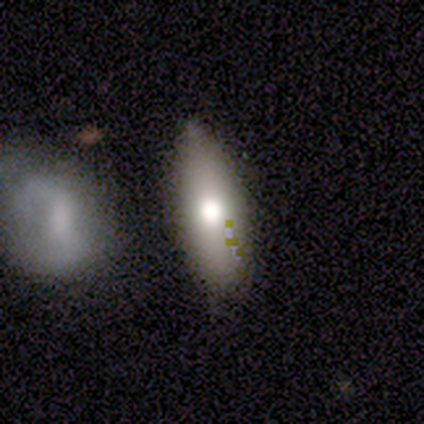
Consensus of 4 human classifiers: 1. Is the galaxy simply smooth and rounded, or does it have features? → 75% smooth, 25% star or artifact, 0% featured or disk.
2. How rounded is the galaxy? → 100% in between, 0% round, 0% cigar-shaped.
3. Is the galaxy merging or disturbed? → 33% none (tied), 33% minor disturbance (tied), 33% merger (tied), 0% major disturbance.